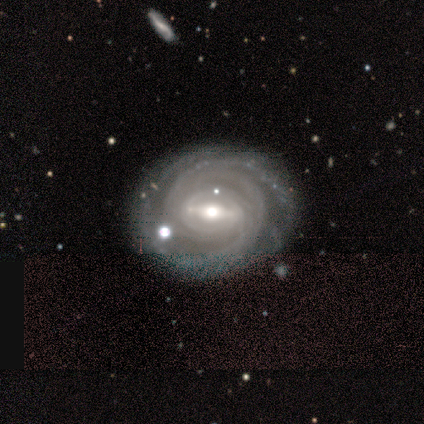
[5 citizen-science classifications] This appears to be a featured or disk galaxy (100%) with a strong bar (40%, tied with weak), tight (100%) spiral arms (100%) and a moderate central bulge (100%). Merging: none (80%).